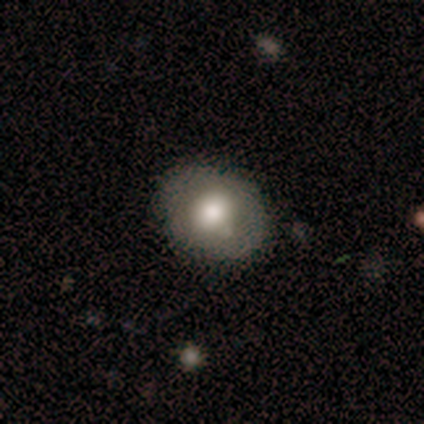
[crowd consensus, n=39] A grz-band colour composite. It shows a smooth galaxy with no disk features (64%) that is round (56%). Merging: none (73%).